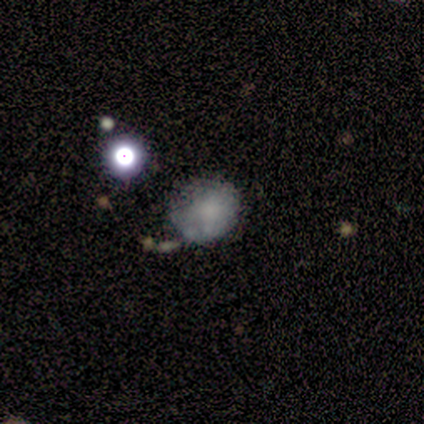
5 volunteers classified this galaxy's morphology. Q: Smooth or featured?
A: smooth (60%); runner-up: star or artifact (40%)
Q: How rounded?
A: round (67%); runner-up: in between (33%)
Q: Merging?
A: none (33%); tied with: minor disturbance (33%); major disturbance (33%)